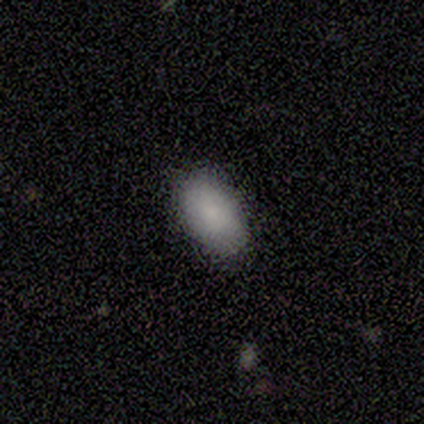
Smooth or featured?
  - smooth: 80% *
  - star or artifact: 20%
  - featured or disk: 0%
How rounded?
  - in between: 100% *
  - round: 0%
  - cigar-shaped: 0%
Merging?
  - none: 75% *
  - minor disturbance: 25%
  - major disturbance: 0%
  - merger: 0%